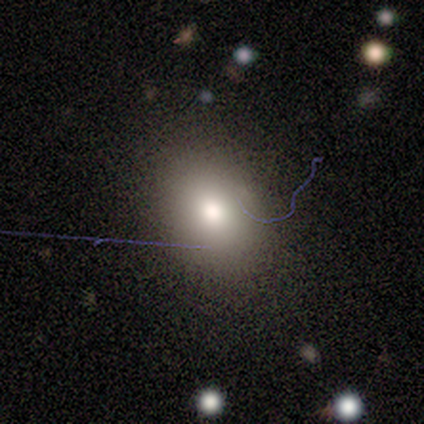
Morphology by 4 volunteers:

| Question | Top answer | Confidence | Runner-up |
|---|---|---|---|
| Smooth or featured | smooth | 75% | featured or disk (25%) |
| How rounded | in between | 67% | round (33%) |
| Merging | none | 50% | tied: minor disturbance (50%) |